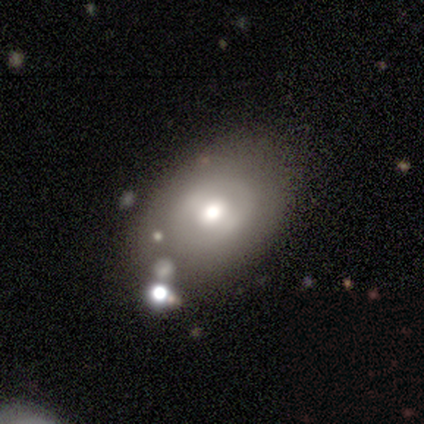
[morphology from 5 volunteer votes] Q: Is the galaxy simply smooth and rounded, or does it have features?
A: smooth — 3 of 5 (60%).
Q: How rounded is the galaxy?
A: in between — 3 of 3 (100%).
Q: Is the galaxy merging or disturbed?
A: none — 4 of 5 (80%).